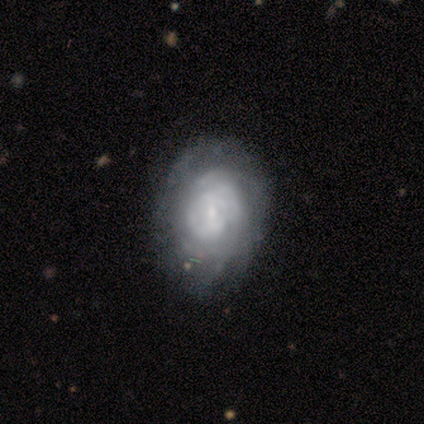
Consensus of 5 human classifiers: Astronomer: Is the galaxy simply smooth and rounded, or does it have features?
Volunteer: featured or disk — 80%.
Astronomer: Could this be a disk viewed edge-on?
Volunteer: no — 100%.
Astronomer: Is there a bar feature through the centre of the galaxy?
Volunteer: weak — 50%, tied with no at 50%.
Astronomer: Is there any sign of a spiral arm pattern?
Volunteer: yes — 100%.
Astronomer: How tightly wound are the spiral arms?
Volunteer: tight — 100%.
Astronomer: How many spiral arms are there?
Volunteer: can't tell — 100%.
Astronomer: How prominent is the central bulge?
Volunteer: small — 75%.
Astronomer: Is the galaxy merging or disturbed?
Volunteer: none — 60% (runner-up: minor disturbance, 40%).